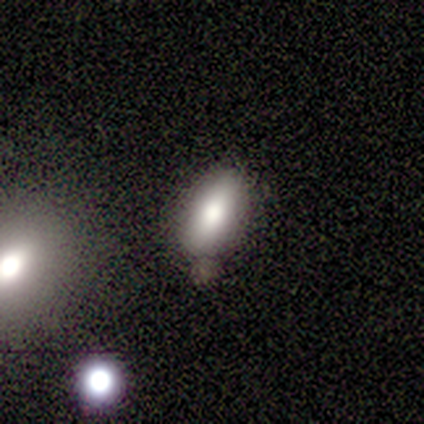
A smooth galaxy with no disk features (71%) that is in between round and cigar-shaped (80%). Merging: none (100%).